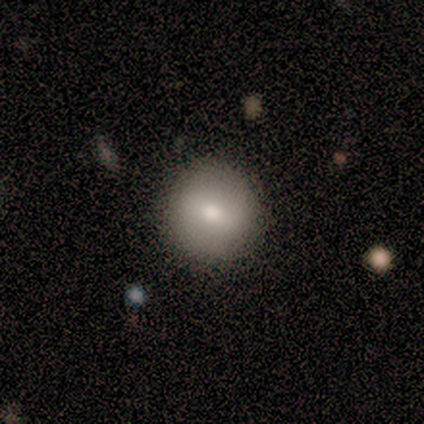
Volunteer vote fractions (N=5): A smooth galaxy with no disk features (100%) that is round (100%).

Vote fractions:
- Smooth or featured? smooth: 100% / featured or disk: 0% / star or artifact: 0%
- How rounded? round: 100% / in between: 0% / cigar-shaped: 0%
- Merging? none: 100% / minor disturbance: 0% / major disturbance: 0% / merger: 0%